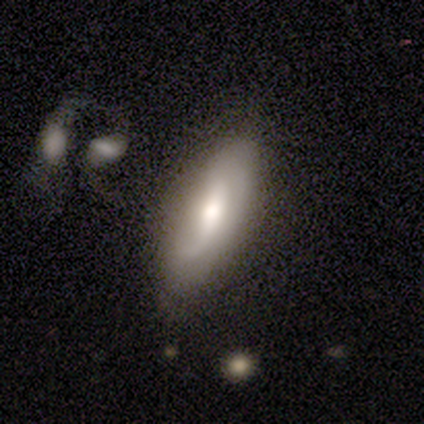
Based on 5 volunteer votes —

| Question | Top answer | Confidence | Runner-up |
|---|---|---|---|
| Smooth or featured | smooth | 60% | featured or disk (40%) |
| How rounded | in between | 67% | round (33%) |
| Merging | none | 60% | minor disturbance (20%) |